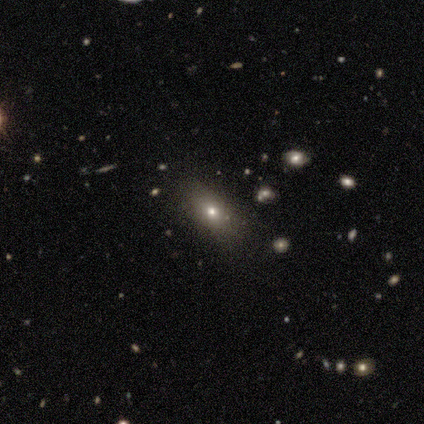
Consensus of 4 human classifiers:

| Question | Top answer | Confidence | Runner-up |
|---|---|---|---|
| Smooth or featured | smooth | 100% | — |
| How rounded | in between | 100% | — |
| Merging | none | 50% | minor disturbance (25%) |